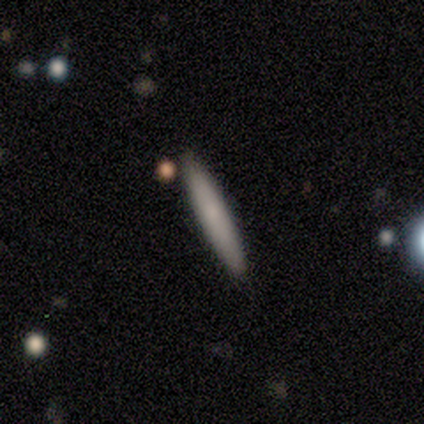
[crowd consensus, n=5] smooth-or-featured: smooth: 100% | featured or disk: 0% | star or artifact: 0%
  how-rounded: cigar-shaped: 100% | round: 0% | in between: 0%
  merging: none: 100% | minor disturbance: 0% | major disturbance: 0% | merger: 0%